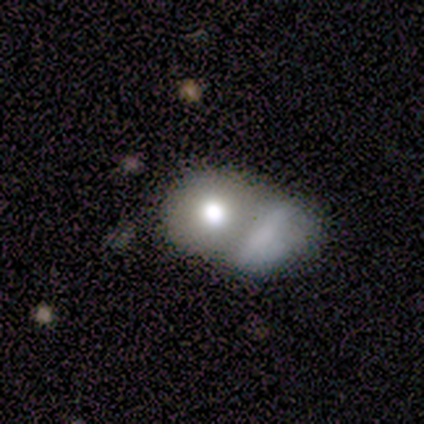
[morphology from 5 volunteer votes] This appears to be a smooth galaxy with no disk features (80%) that is round (100%). Merging: merger (60%).